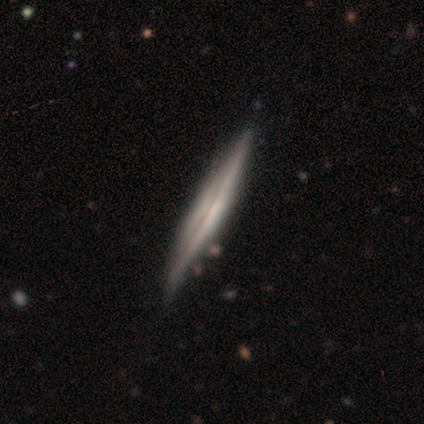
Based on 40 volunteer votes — smooth-or-featured: featured or disk: 78% | smooth: 22% | star or artifact: 0%
  disk-edge-on: yes: 100% | no: 0%
    edge-on-bulge: none: 58% | boxy: 23% | rounded: 19%
  merging: none: 68% | minor disturbance: 12% | major disturbance: 0% | merger: 0%